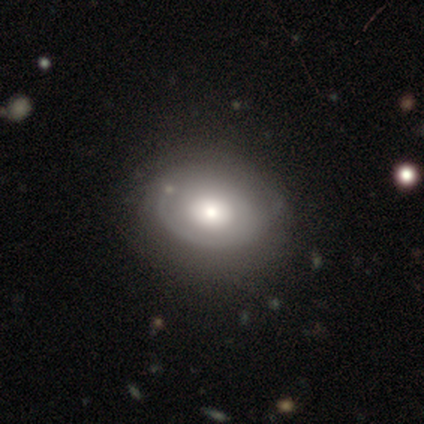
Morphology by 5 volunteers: Volunteers were most divided on "smooth or featured": smooth: 60%, featured or disk: 20%, star or artifact: 20%. More confident: how rounded — in between (100%); merging — none (75%).